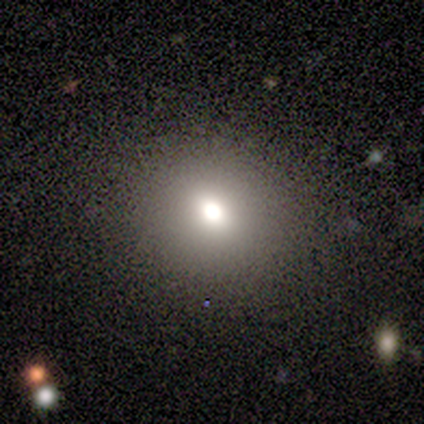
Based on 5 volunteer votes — Volunteers were most divided on "smooth or featured" (2-way tie): smooth: 40%, star or artifact: 40%, featured or disk: 20%; "how rounded" (2-way tie): round: 50%, in between: 50%, cigar-shaped: 0%. More confident: merging — none (100%).